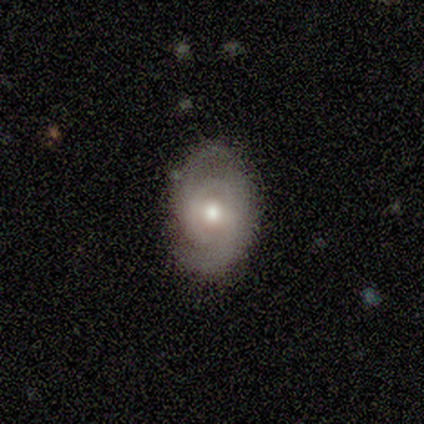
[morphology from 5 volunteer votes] Q: Smooth or featured?
A: featured or disk (80%); runner-up: smooth (20%)
Q: Edge-on disk?
A: no (100%)
Q: Bar?
A: weak (100%)
Q: Spiral arms?
A: yes (100%)
Q: Spiral winding?
A: medium (50%); runner-up: tight (25%)
Q: Spiral arm count?
A: 2 (100%)
Q: Bulge size?
A: moderate (100%)
Q: Merging?
A: none (80%); runner-up: minor disturbance (20%)